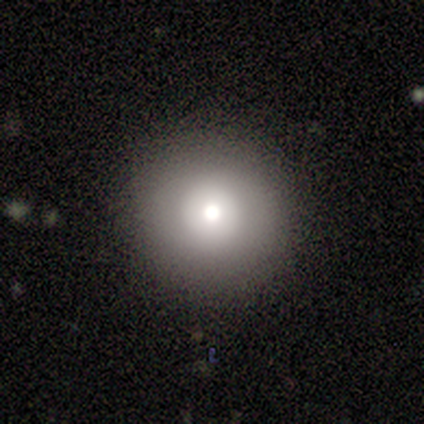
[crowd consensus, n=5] smooth-or-featured: smooth: 60% | featured or disk: 40% | star or artifact: 0%
  how-rounded: round: 100% | in between: 0% | cigar-shaped: 0%
  merging: none: 60% | minor disturbance: 40% | major disturbance: 0% | merger: 0%